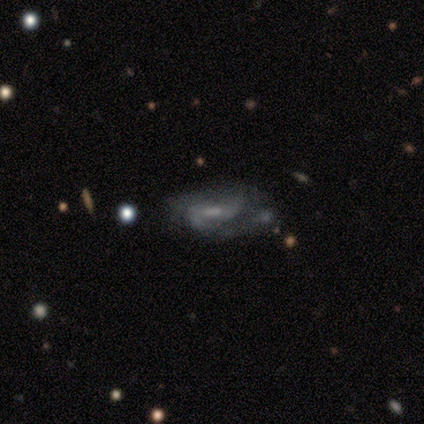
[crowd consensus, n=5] Overall: featured or disk (80%). Edge-on disk: no (100%). Bar: strong (50%; weak 25%). Spiral arms: yes (100%). Spiral arm count: 2 (100%). Spiral winding: medium (50%; tight 25%). Bulge size: small (50%; moderate 25%). Merging: none (40%, tied with minor disturbance).